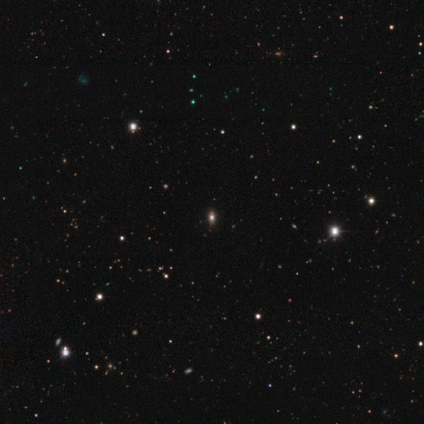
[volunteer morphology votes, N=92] star or artifact 67%, smooth 21%, featured or disk 12%.